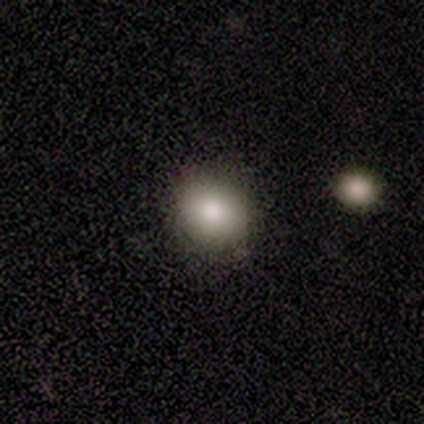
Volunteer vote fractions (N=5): Q: Smooth or featured?
A: smooth (80%); runner-up: featured or disk (20%)
Q: How rounded?
A: round (75%); runner-up: in between (25%)
Q: Merging?
A: none (80%); runner-up: minor disturbance (20%)